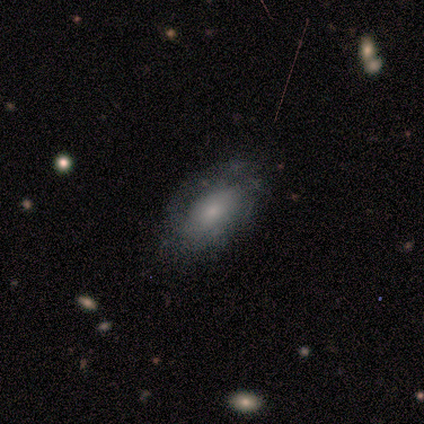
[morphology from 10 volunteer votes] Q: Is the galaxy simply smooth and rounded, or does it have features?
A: featured or disk — 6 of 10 (60%).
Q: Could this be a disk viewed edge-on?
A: no — 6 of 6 (100%).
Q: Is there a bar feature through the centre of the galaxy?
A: no — 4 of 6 (67%).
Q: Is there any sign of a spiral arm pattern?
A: yes — 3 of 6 (50%, tied with no).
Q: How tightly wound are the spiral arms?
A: tight — 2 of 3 (67%).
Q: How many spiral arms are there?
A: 1 — 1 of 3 (33%, tied with 3 and can't tell).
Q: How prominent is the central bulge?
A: moderate — 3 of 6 (50%).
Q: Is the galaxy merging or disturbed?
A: none — 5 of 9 (56%).